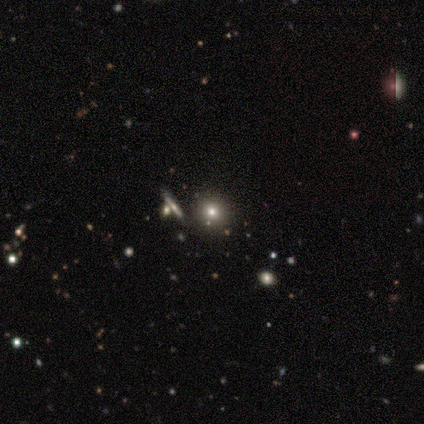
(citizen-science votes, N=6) smooth_or_featured: smooth (p=0.83) [alt: featured or disk p=0.17]
how_rounded: round (p=1.00)
merging: none (p=0.83) [alt: major disturbance p=0.17]